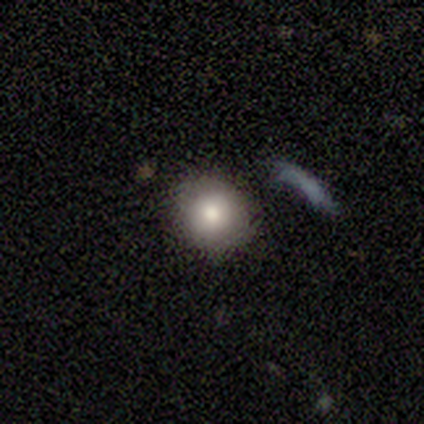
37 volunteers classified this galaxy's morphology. type=smooth (84%); roundness=round (87%); merging=none (76%).